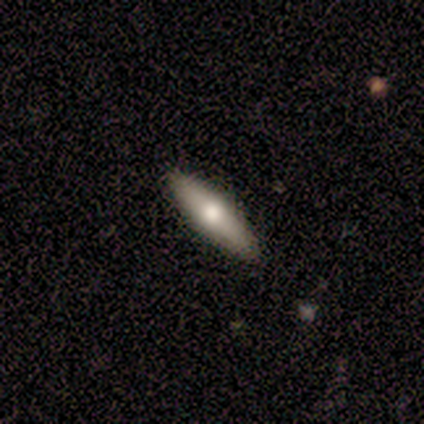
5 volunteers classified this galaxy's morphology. Overall: smooth (80%). How rounded: cigar-shaped (75%). Merging: none (100%).